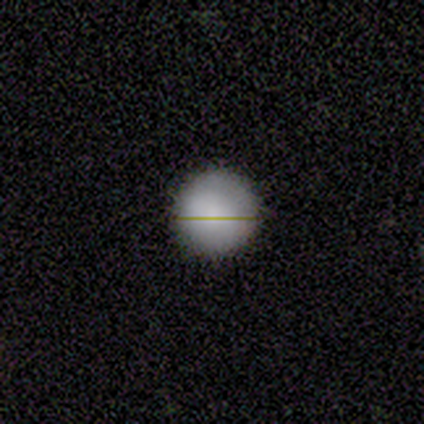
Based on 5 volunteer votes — A smooth galaxy with no disk features (100%) that is round (100%).

Vote fractions:
- Smooth or featured? smooth: 100% / featured or disk: 0% / star or artifact: 0%
- How rounded? round: 100% / in between: 0% / cigar-shaped: 0%
- Merging? none: 100% / minor disturbance: 0% / major disturbance: 0% / merger: 0%